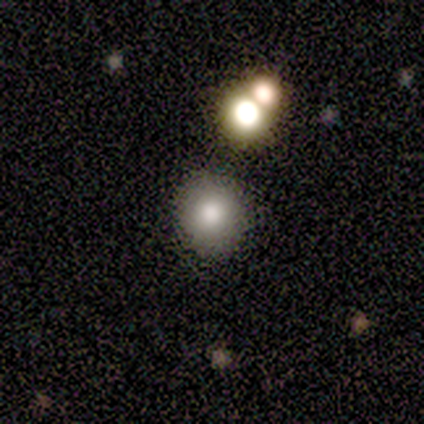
A smooth galaxy with no disk features (80%) that is round (100%). Merging: none (100%).